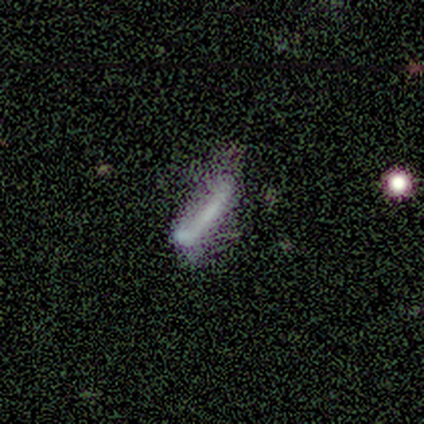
Smooth or featured? smooth (60%)
How rounded? cigar-shaped (67%)
Merging? none (40%, tied with merger)